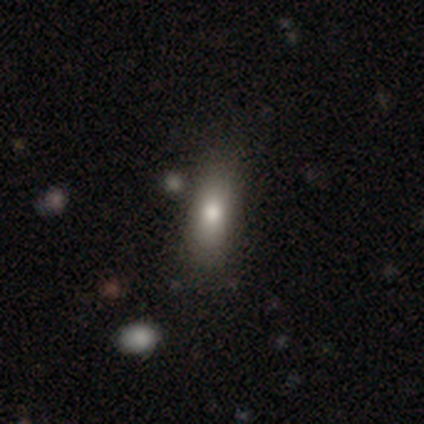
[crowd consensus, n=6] Morphology: type=smooth (83%); roundness=cigar-shaped (60%); merging=none (83%).